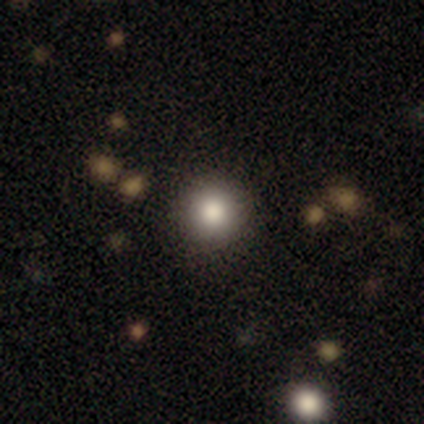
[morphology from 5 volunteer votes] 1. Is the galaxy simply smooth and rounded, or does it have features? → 100% smooth, 0% featured or disk, 0% star or artifact.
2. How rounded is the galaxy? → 100% round, 0% in between, 0% cigar-shaped.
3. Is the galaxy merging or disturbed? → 60% none, 40% minor disturbance, 0% major disturbance, 0% merger.